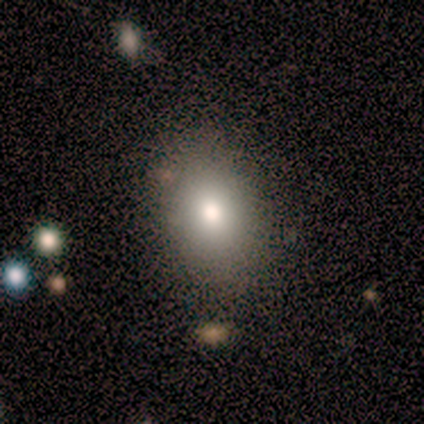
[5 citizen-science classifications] Q: Smooth or featured?
A: smooth (60%); runner-up: featured or disk (40%)
Q: How rounded?
A: in between (67%); runner-up: round (33%)
Q: Merging?
A: none (80%); runner-up: minor disturbance (20%)